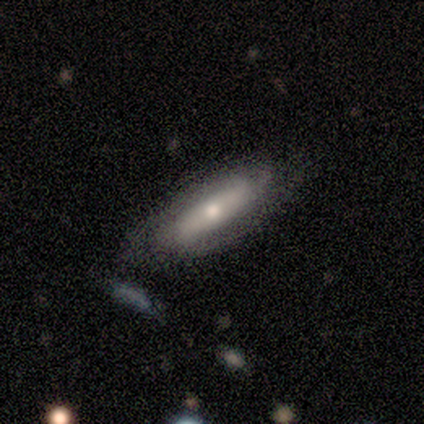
This appears to be a featured or disk galaxy (78%) with a strong bar (40%, tied with weak), 2 (80%) tight (40%, tied with medium) spiral arms (100%) and a moderate central bulge (80%). Merging: none (62%).